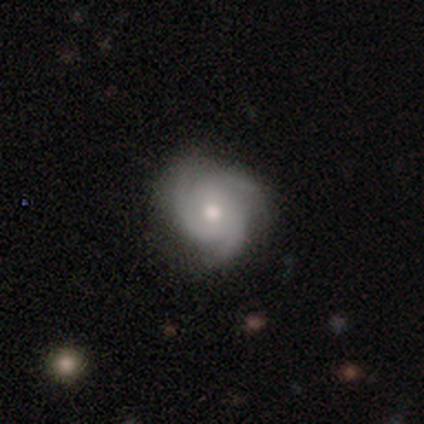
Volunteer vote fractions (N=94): Q: Smooth or featured?
A: featured or disk (83%); runner-up: smooth (12%)
Q: Edge-on disk?
A: no (97%); runner-up: yes (3%)
Q: Bar?
A: no (80%); runner-up: weak (18%)
Q: Spiral arms?
A: yes (95%); runner-up: no (5%)
Q: Spiral winding?
A: tight (64%); runner-up: medium (22%)
Q: Spiral arm count?
A: 3 (96%); runner-up: 2 (1%)
Q: Bulge size?
A: moderate (68%); runner-up: small (26%)
Q: Merging?
A: none (84%); runner-up: minor disturbance (10%)